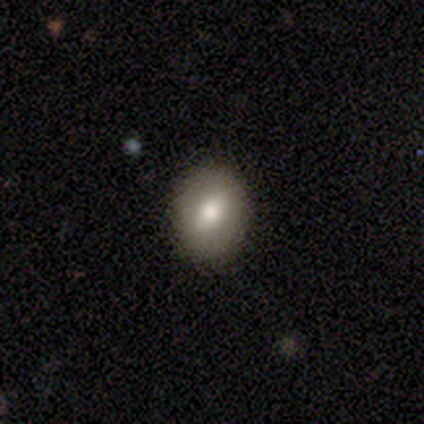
Volunteers were most divided on "how rounded": round: 67%, in between: 33%, cigar-shaped: 0%. More confident: merging — none (89%); smooth or featured — smooth (77%).